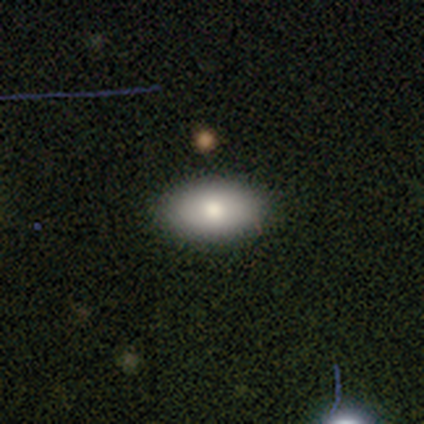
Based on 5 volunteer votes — Smooth or featured?
  - smooth: 100% *
  - featured or disk: 0%
  - star or artifact: 0%
How rounded?
  - in between: 100% *
  - round: 0%
  - cigar-shaped: 0%
Merging?
  - none: 100% *
  - minor disturbance: 0%
  - major disturbance: 0%
  - merger: 0%